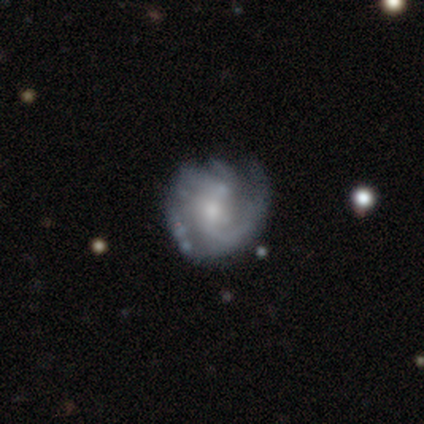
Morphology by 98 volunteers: This is clearly a featured or disk galaxy (85%). It is clearly not viewed edge-on (98%). Bar: possibly no (49%). Spiral arm pattern: clearly yes (100%). Spiral arm count: marginally 2 (36%). Spiral winding: marginally medium (41%). Central bulge: marginally moderate (44%, tied with small). Merging: likely none (65%).